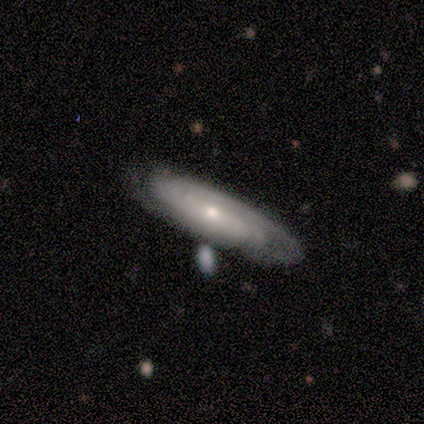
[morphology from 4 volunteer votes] type=smooth (50%, tied with featured or disk); roundness=cigar-shaped (100%); merging=none (75%).